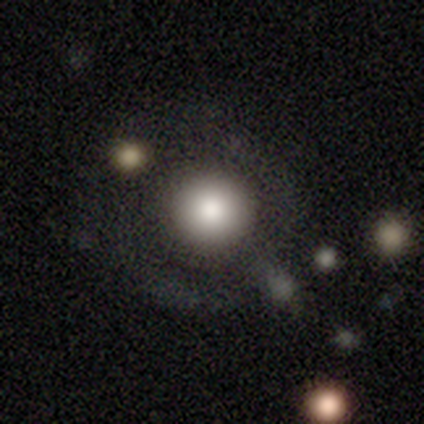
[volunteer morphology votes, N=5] This appears to be a smooth galaxy with no disk features (80%) that is round (75%). Merging: none (100%).